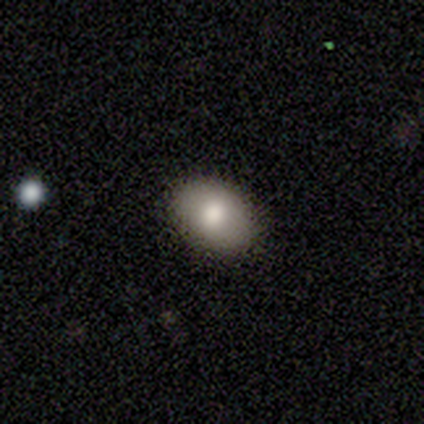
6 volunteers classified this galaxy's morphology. This is likely a smooth galaxy (67%). How rounded: clearly in between (100%). Merging: clearly none (100%).